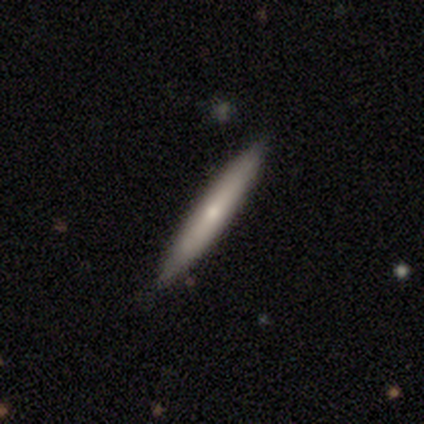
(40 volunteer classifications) This appears to be a featured or disk galaxy (50%) viewed edge-on (85%) with a rounded central bulge (71%). Merging: none (92%).